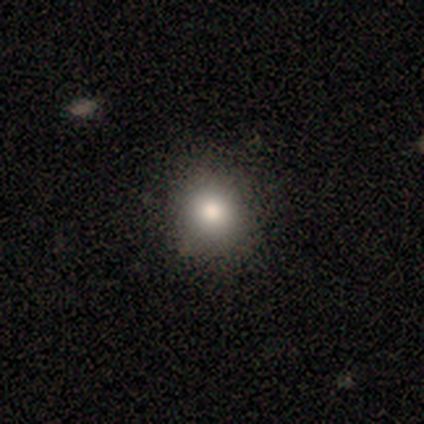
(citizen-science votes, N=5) A smooth galaxy with no disk features (80%) that is round (100%). Merging: none (100%).